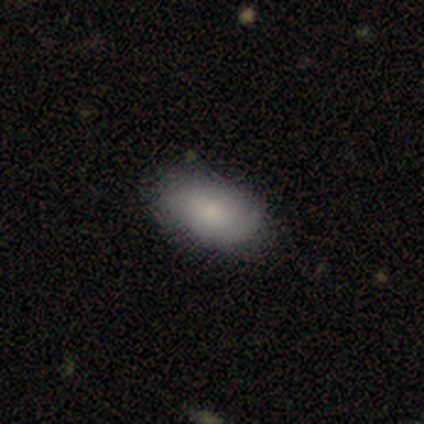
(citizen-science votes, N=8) A smooth galaxy with no disk features (88%) that is in between round and cigar-shaped (100%). Merging: none (100%).